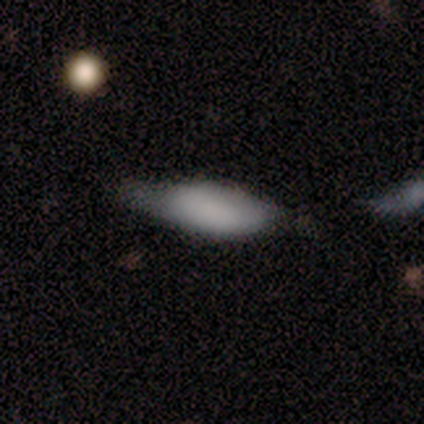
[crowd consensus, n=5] Smooth or featured? 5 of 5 (100%) said smooth. How rounded? 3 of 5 (60%) said in between. Merging? 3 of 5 (60%) said minor disturbance.